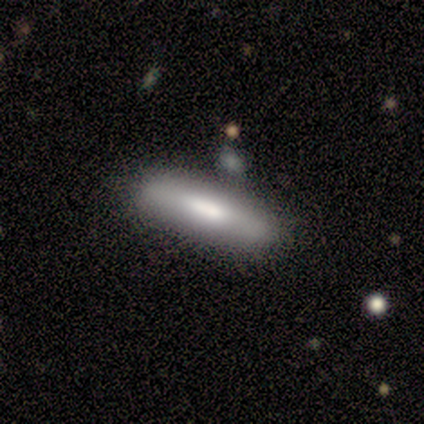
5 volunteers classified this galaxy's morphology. smooth_or_featured: smooth (p=0.60) [alt: featured or disk p=0.40]
how_rounded: cigar-shaped (p=0.67) [alt: round p=0.33]
merging: none (p=0.40) [tied with: minor disturbance p=0.40]